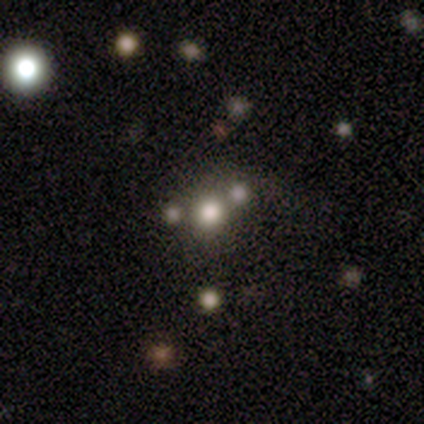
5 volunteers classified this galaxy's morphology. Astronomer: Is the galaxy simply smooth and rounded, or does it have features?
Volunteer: smooth — 40%, tied with featured or disk at 40%.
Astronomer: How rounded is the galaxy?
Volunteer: round — 100%.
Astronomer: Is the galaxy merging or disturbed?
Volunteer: merger — 50%.